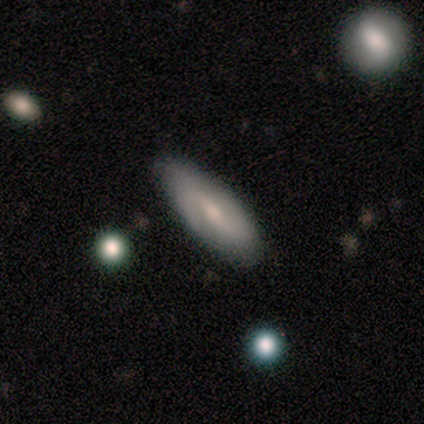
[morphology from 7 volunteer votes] smooth_or_featured: featured or disk (p=0.57) [alt: star or artifact p=0.29]
disk_edge_on: no (p=0.75) [alt: yes p=0.25]
bar: weak (p=1.00)
has_spiral_arms: yes (p=1.00)
spiral_winding: loose (p=1.00)
spiral_arm_count: 2 (p=1.00)
bulge_size: small (p=0.67) [alt: moderate p=0.33]
merging: none (p=0.60) [alt: minor disturbance p=0.40]